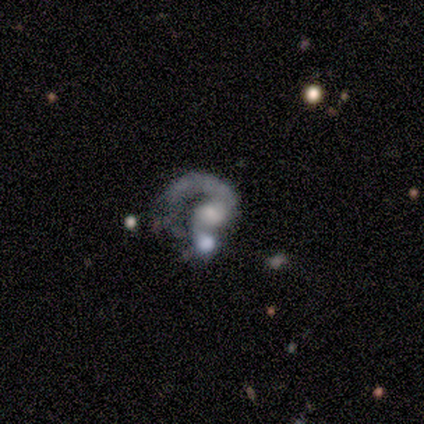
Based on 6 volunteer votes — smooth_or_featured: featured or disk (p=1.00)
disk_edge_on: no (p=1.00)
bar: no (p=0.67) [alt: weak p=0.33]
has_spiral_arms: yes (p=0.83) [alt: no p=0.17]
spiral_winding: medium (p=0.60) [alt: loose p=0.40]
spiral_arm_count: 1 (p=0.80) [alt: can't tell p=0.20]
bulge_size: small (p=0.50) [alt: large p=0.17]
merging: none (p=0.50) [alt: minor disturbance p=0.17]